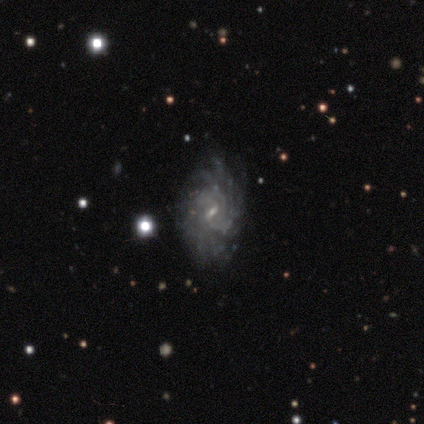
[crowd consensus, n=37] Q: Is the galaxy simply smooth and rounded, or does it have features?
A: featured or disk — 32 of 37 (86%).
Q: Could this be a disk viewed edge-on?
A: no — 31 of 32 (97%).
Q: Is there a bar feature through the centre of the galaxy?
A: weak — 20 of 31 (65%).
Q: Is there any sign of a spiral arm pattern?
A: yes — 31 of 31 (100%).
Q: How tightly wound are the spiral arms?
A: tight — 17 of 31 (55%).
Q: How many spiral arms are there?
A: more than 4 — 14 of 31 (45%, tied with can't tell).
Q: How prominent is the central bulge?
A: small — 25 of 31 (81%).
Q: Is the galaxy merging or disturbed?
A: none — 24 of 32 (75%).